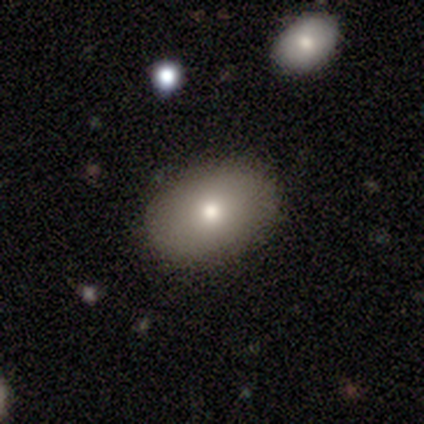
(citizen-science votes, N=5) This appears to be a smooth galaxy with no disk features (80%) that is in between round and cigar-shaped (100%). Merging: none (75%).